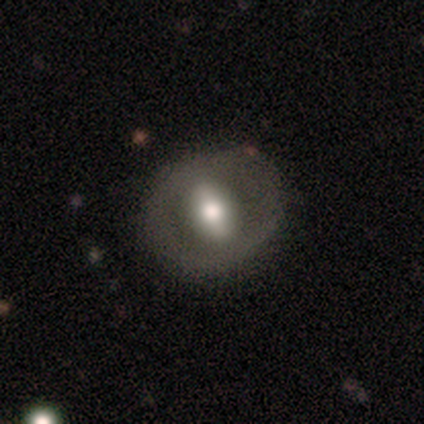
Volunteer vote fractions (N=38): A featured or disk galaxy (71%) with a strong bar (54%), no spiral arms (92%) and a moderate central bulge (42%). Merging: none (83%).